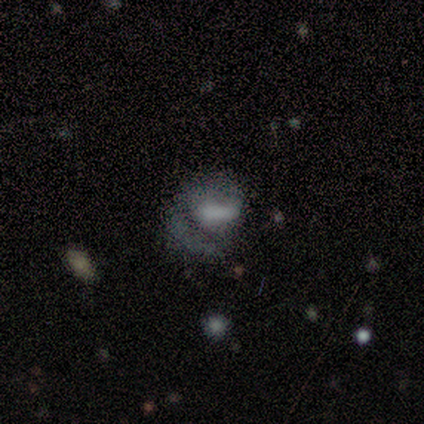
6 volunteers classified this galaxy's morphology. Smooth or featured? smooth (50%)
How rounded? in between (67%)
Merging? none (40%, tied with major disturbance)